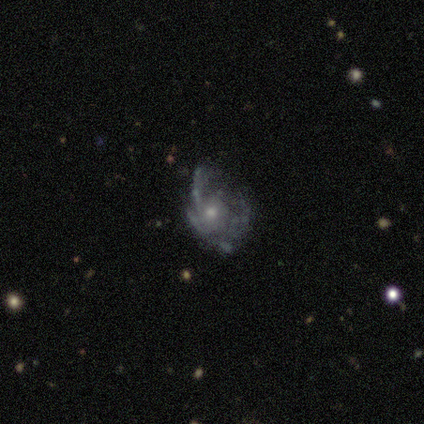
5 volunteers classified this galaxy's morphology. Q: Smooth or featured?
A: featured or disk (60%); runner-up: smooth (40%)
Q: Edge-on disk?
A: no (100%)
Q: Bar?
A: no (100%)
Q: Spiral arms?
A: yes (100%)
Q: Spiral winding?
A: loose (67%); runner-up: medium (33%)
Q: Spiral arm count?
A: can't tell (67%); runner-up: 1 (33%)
Q: Bulge size?
A: small (100%)
Q: Merging?
A: none (40%); tied with: major disturbance (40%)